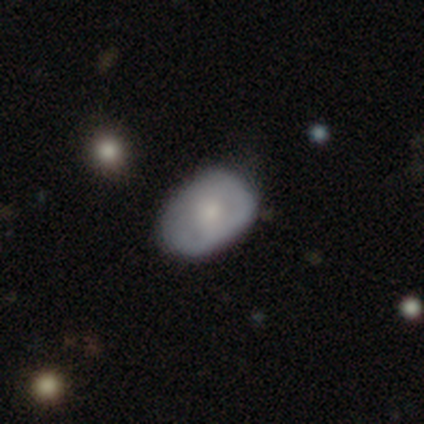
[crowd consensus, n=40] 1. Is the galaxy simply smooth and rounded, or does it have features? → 57% smooth, 38% featured or disk, 5% star or artifact.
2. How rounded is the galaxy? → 87% in between, 13% round, 0% cigar-shaped.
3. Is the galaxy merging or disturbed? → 45% none, 26% minor disturbance, 3% major disturbance, 3% merger.